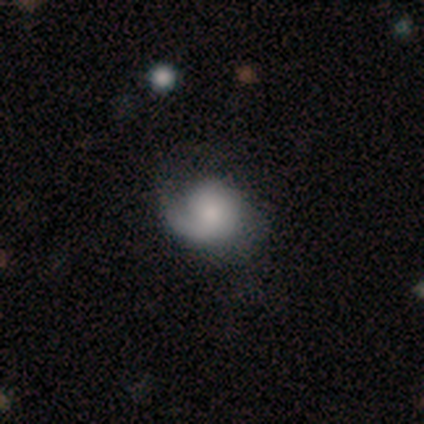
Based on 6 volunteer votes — smooth-or-featured: featured or disk: 67% | smooth: 17% | star or artifact: 17%
  disk-edge-on: no: 100% | yes: 0%
    bar: no: 75% | weak: 25% | strong: 0%
    has-spiral-arms: yes: 75% | no: 25%
      spiral-winding: tight: 33% (tied) | medium: 33% (tied) | loose: 33% (tied)
      spiral-arm-count: 1: 100% | 2: 0% | 3: 0% | 4: 0% | more than 4: 0% | can't tell: 0%
    bulge-size: small: 50% | large: 25% | none: 25% | dominant: 0% | moderate: 0%
  merging: none: 60% | minor disturbance: 20% | major disturbance: 20% | merger: 0%